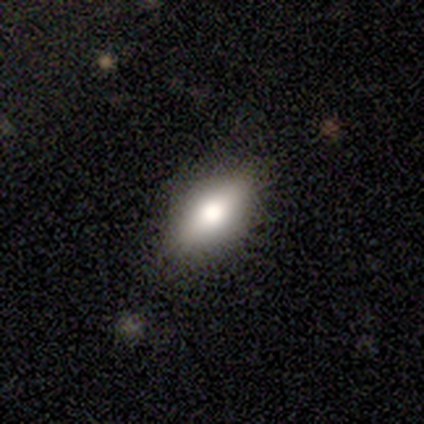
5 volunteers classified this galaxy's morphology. Smooth or featured: featured or disk — 60% (smooth — 40%)
Edge-on disk: yes — 100%
Edge-on bulge: rounded — 100%
Merging: none — 80% (minor disturbance — 20%)